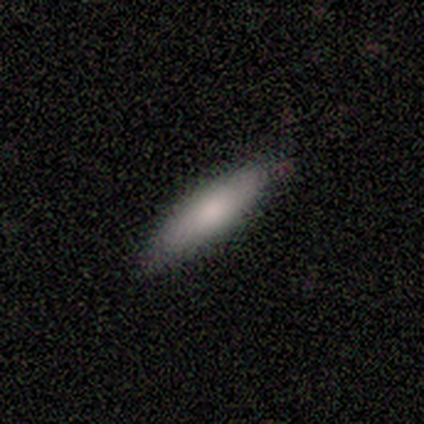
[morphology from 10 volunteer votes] Smooth or featured?
  - smooth: 80% *
  - featured or disk: 20%
  - star or artifact: 0%
How rounded?
  - in between: 50% * (tied)
  - cigar-shaped: 50% * (tied)
  - round: 0%
Merging?
  - none: 80% *
  - minor disturbance: 20%
  - major disturbance: 0%
  - merger: 0%